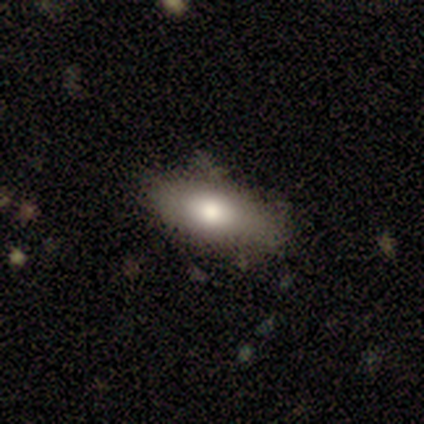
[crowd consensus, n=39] Smooth or featured? 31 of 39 (79%) said smooth. How rounded? 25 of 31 (81%) said in between. Merging? 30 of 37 (81%) said none.